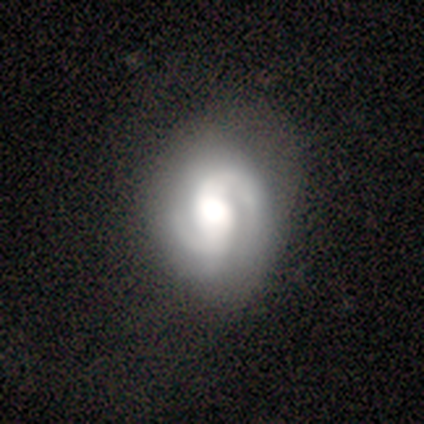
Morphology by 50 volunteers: Smooth or featured? featured or disk (90%)
Edge-on disk? no (98%)
Bar? no (39%)
Spiral arms? yes (98%)
Spiral winding? medium (56%)
Spiral arm count? 2 (95%)
Bulge size? large (66%)
Merging? none (62%)